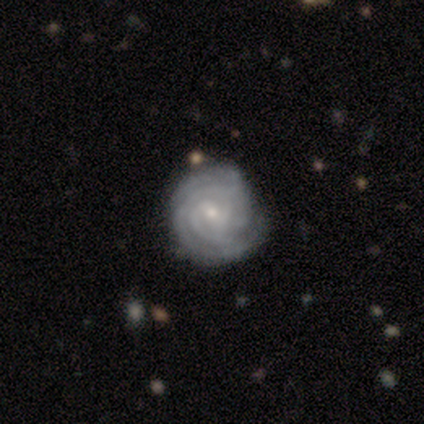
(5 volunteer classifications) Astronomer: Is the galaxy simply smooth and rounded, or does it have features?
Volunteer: featured or disk — 100%.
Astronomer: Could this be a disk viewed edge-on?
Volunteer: no — 100%.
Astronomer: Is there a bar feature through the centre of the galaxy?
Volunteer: no — 60%.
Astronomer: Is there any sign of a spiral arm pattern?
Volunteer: yes — 100%.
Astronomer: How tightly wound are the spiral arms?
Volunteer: tight — 80%.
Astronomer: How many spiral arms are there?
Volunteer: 3 — 60%.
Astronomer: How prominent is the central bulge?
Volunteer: small — 80%.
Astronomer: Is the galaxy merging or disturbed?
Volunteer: none — 100%.